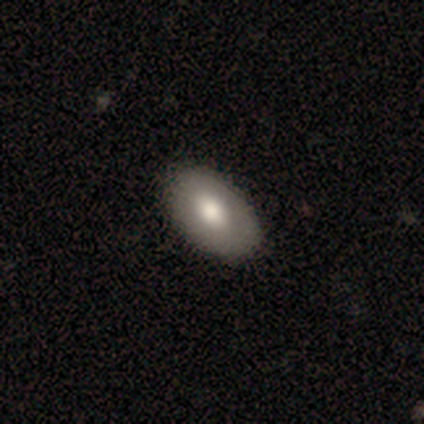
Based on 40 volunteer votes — Smooth or featured? smooth (78%)
How rounded? in between (90%)
Merging? none (76%)